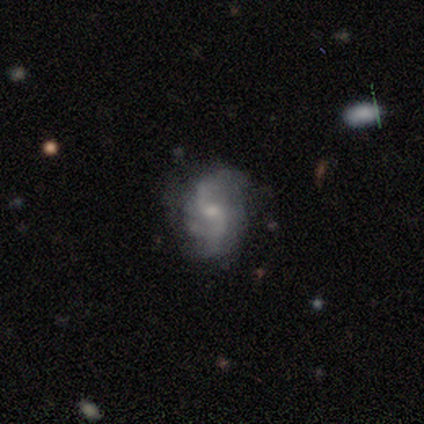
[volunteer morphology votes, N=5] Smooth or featured? featured or disk (80%)
Edge-on disk? no (100%)
Bar? weak (50%, tied with no)
Spiral arms? yes (100%)
Spiral winding? loose (75%)
Spiral arm count? 2 (75%)
Bulge size? moderate (75%)
Merging? none (60%)